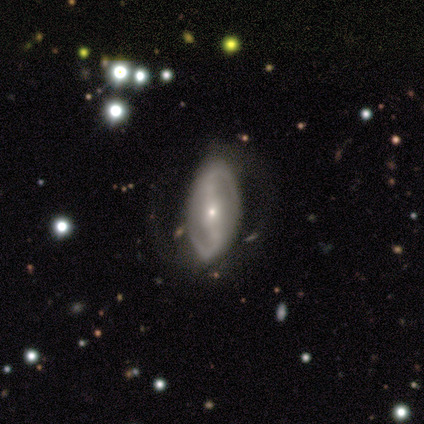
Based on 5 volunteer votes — A featured or disk galaxy (80%) with no bar (67%), 2 (100%) tight (33%, tied with medium and loose) spiral arms (100%) and a small central bulge (100%).

Vote fractions:
- Smooth or featured? featured or disk: 80% / smooth: 20% / star or artifact: 0%
- Edge-on disk? no: 75% / yes: 25%
- Bar? no: 67% / strong: 33% / weak: 0%
- Spiral arms? yes: 100% / no: 0%
- Spiral winding? tight: 33% (tied) / medium: 33% (tied) / loose: 33% (tied)
- Spiral arm count? 2: 100% / 1: 0% / 3: 0% / 4: 0% / more than 4: 0% / can't tell: 0%
- Bulge size? small: 100% / dominant: 0% / large: 0% / moderate: 0% / none: 0%
- Merging? none: 80% / minor disturbance: 20% / major disturbance: 0% / merger: 0%